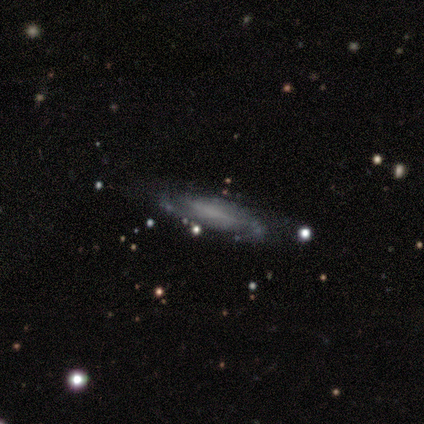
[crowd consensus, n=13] This is likely a featured or disk galaxy (62%). It is possibly viewed edge-on (50%, tied with no). Edge-on bulge: clearly none (100%). Merging: likely none (67%).